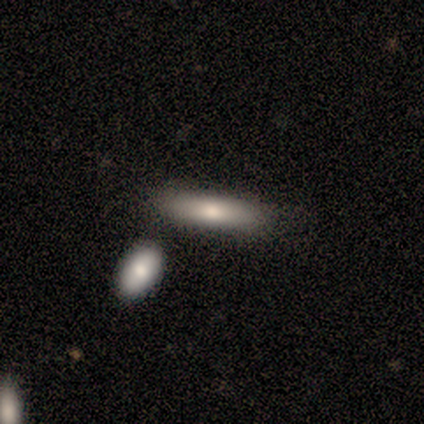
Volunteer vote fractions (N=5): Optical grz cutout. It shows a smooth galaxy with no disk features (80%) that is cigar-shaped (75%). Merging: none (60%).